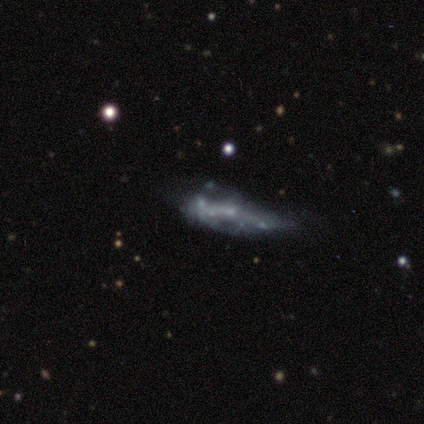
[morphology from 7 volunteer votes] Volunteers were most divided on "bulge size" (2-way tie): small: 50%, none: 50%, dominant: 0%, large: 0%, moderate: 0%. More confident: edge-on disk — no (80%); bar — no (75%); spiral arms — no (75%); smooth or featured — featured or disk (71%); merging — minor disturbance (67%).